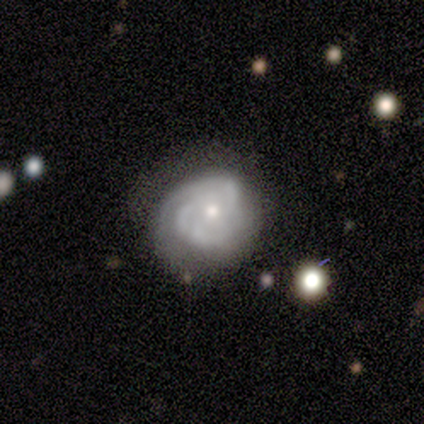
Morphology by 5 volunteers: Q: Smooth or featured?
A: featured or disk (80%); runner-up: smooth (20%)
Q: Edge-on disk?
A: no (100%)
Q: Bar?
A: no (100%)
Q: Spiral arms?
A: yes (100%)
Q: Spiral winding?
A: tight (75%); runner-up: loose (25%)
Q: Spiral arm count?
A: 2 (50%); runner-up: 3 (25%)
Q: Bulge size?
A: small (75%); runner-up: moderate (25%)
Q: Merging?
A: minor disturbance (60%); runner-up: none (40%)